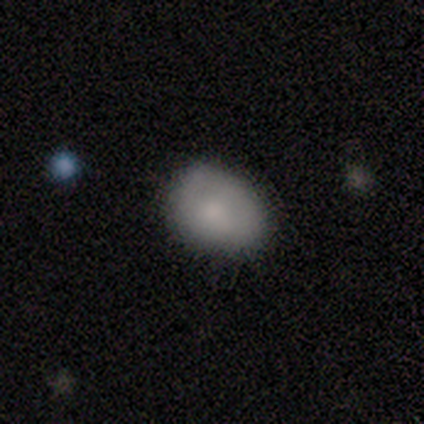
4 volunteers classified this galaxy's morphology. This appears to be a smooth galaxy with no disk features (50%, tied with star or artifact) that is in between round and cigar-shaped (100%). Merging: none (50%, tied with minor disturbance).